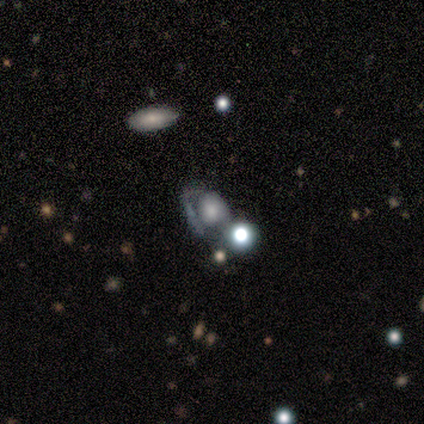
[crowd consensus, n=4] This appears to be a smooth galaxy with no disk features (50%, tied with featured or disk) that is round (50%, tied with in between). Merging: none (50%).